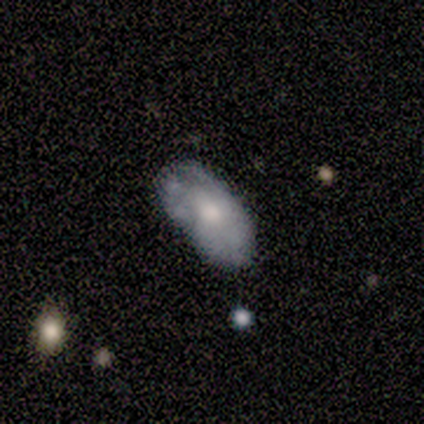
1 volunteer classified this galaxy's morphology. featured or disk 100%, smooth 0%, star or artifact 0%. Down the decision tree: edge-on disk — no (100%); bar — no (100%); spiral arms — no (100%); bulge size — moderate (100%); merging — minor disturbance (100%).